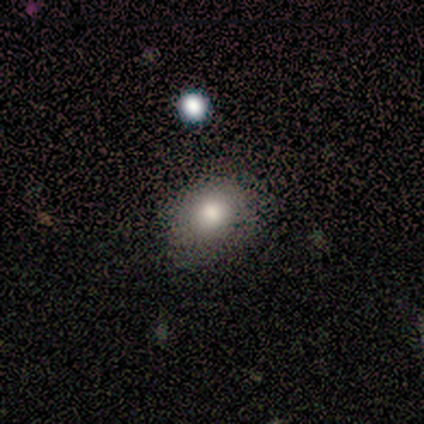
Smooth or featured? 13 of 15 (87%) said smooth. How rounded? 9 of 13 (69%) said in between. Merging? 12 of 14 (86%) said none.